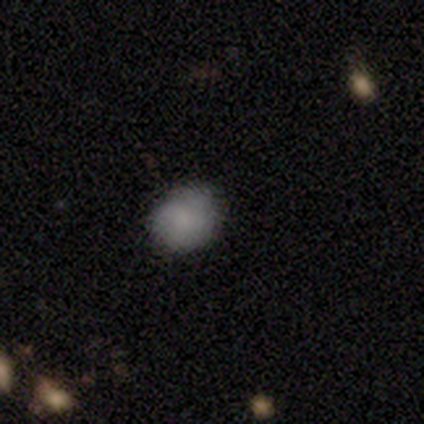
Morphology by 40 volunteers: type=smooth (80%); roundness=round (69%); merging=none (79%).